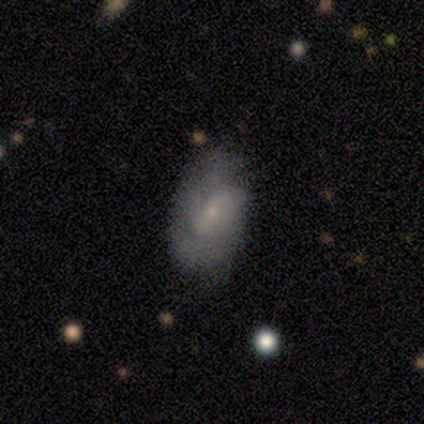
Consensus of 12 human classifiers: This appears to be a featured or disk galaxy (58%) with a weak bar (67%), 2 (75%) medium (50%, tied with loose) spiral arms (67%) and a small central bulge (67%). Merging: none (67%).